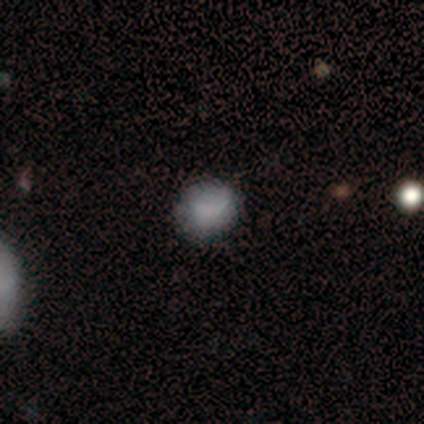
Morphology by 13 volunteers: Smooth or featured? smooth (54%)
How rounded? round (100%)
Merging? none (67%)